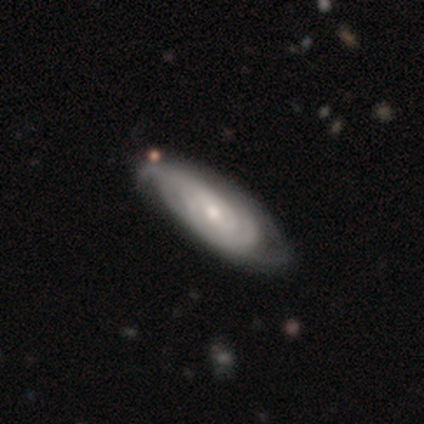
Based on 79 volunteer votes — Smooth or featured: featured or disk — 90% (smooth — 6%)
Edge-on disk: no — 86% (yes — 14%)
Bar: no — 64% (weak — 28%)
Spiral arms: yes — 93% (no — 7%)
Spiral winding: tight — 84% (medium — 11%)
Spiral arm count: can't tell — 51% (2 — 25%)
Bulge size: small — 51% (moderate — 43%)
Merging: none — 33% (minor disturbance — 13%)